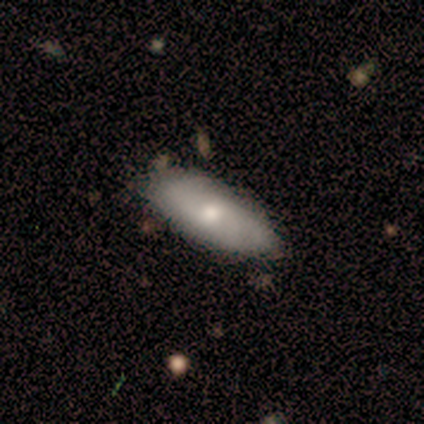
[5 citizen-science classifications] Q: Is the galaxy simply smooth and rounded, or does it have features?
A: smooth — 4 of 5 (80%).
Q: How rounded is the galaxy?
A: in between — 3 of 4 (75%).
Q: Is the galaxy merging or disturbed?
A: none — 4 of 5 (80%).